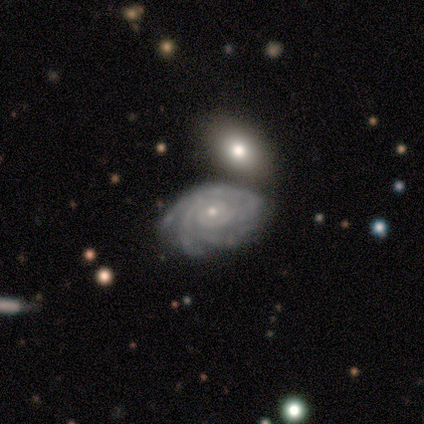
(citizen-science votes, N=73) Smooth or featured? featured or disk (85%)
Edge-on disk? no (95%)
Bar? no (83%)
Spiral arms? yes (98%)
Spiral winding? tight (90%)
Spiral arm count? 3 (29%)
Bulge size? small (69%)
Merging? none (62%)